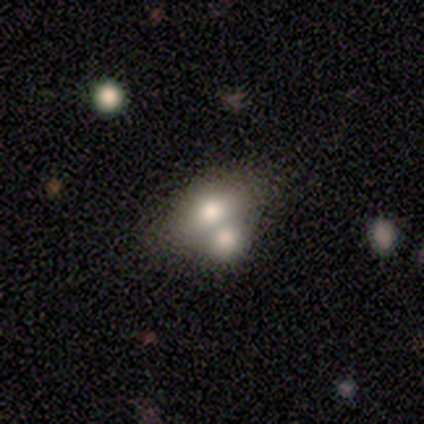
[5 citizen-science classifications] Overall: smooth (60%; featured or disk 40%). How rounded: in between (67%; round 33%). Merging: merger (60%; none 20%).